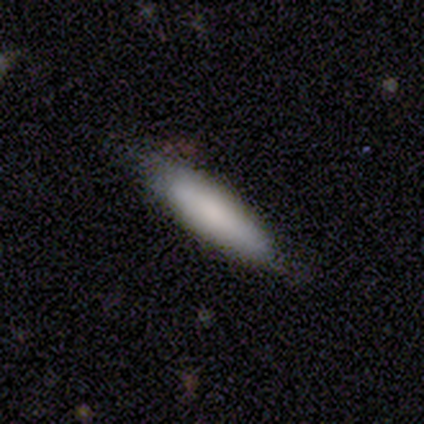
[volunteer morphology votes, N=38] A smooth galaxy with no disk features (82%) that is cigar-shaped (77%). Merging: none (71%).